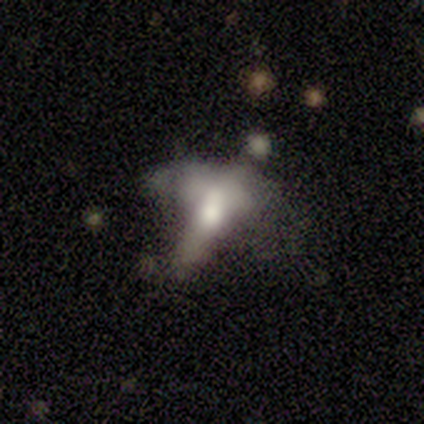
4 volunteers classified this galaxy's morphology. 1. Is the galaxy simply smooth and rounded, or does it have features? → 50% star or artifact, 25% smooth, 25% featured or disk.